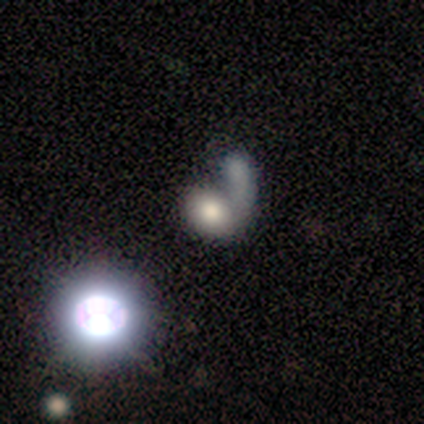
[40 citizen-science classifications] smooth 62%, star or artifact 20%, featured or disk 18%. Down the decision tree: how rounded — round (56%); merging — merger (62%).